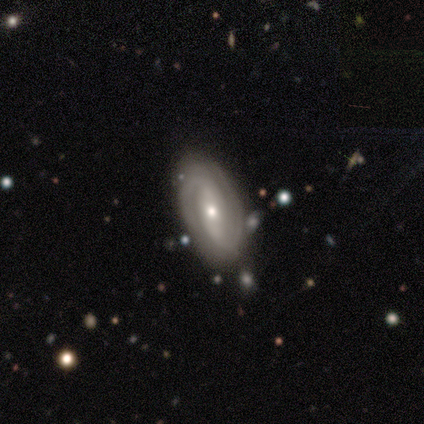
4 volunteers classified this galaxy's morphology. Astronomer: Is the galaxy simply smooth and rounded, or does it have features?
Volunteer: featured or disk — 100%.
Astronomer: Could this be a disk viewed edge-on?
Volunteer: no — 100%.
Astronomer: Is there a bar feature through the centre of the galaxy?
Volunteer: strong — 75%.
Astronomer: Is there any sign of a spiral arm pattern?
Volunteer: yes — 100%.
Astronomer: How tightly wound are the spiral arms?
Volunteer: tight — 75%.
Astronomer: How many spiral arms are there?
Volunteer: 2 — 100%.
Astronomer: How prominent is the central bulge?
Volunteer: small — 75%.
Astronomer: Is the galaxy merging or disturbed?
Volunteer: none — 100%.